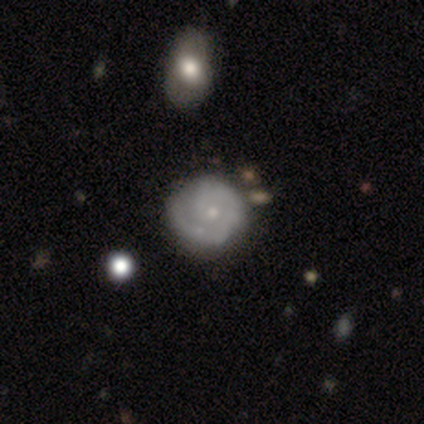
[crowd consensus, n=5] A featured or disk galaxy (60%) with no bar (67%), 1 (33%, tied with 2 and can't tell) tight (67%) spiral arms (100%) and a small central bulge (100%). Merging: none (100%).